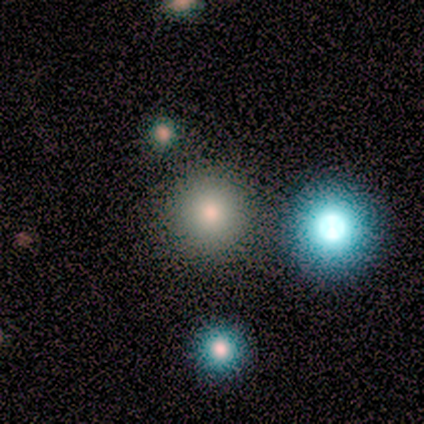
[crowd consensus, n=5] Smooth or featured?
  - smooth: 60% *
  - featured or disk: 20%
  - star or artifact: 20%
How rounded?
  - round: 100% *
  - in between: 0%
  - cigar-shaped: 0%
Merging?
  - none: 50% * (tied)
  - merger: 50% * (tied)
  - minor disturbance: 0%
  - major disturbance: 0%